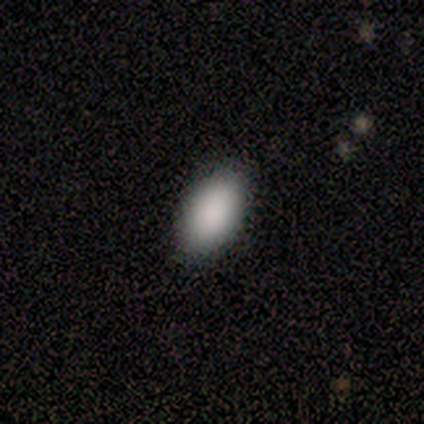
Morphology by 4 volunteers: Smooth or featured: smooth — 75% (featured or disk — 25%)
How rounded: in between — 100%
Merging: none — 100%